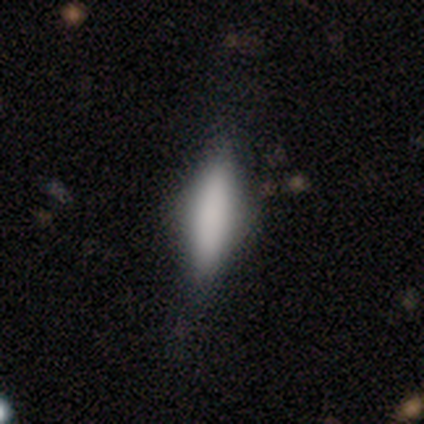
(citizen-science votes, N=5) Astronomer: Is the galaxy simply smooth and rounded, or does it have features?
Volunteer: smooth — 80%.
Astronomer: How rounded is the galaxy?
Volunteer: cigar-shaped — 75%.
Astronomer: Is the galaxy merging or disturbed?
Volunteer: none — 100%.